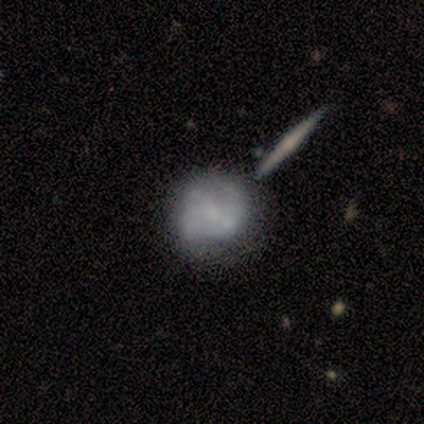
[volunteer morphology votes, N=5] This appears to be a smooth galaxy with no disk features (60%) that is round (100%). Merging: major disturbance (40%).